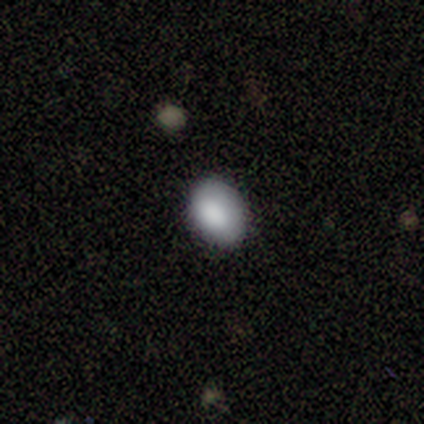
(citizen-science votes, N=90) Morphology: type=smooth (88%); roundness=in between (73%); merging=none (80%).